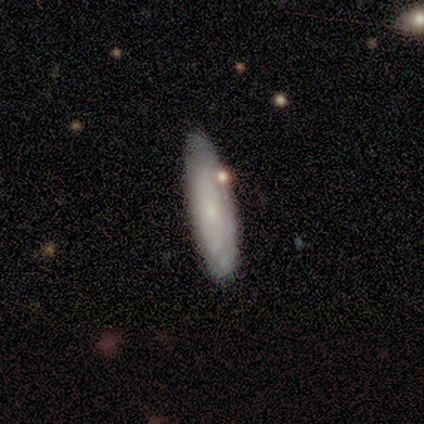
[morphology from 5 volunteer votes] Smooth or featured?
  - smooth: 60% *
  - star or artifact: 40%
  - featured or disk: 0%
How rounded?
  - cigar-shaped: 67% *
  - in between: 33%
  - round: 0%
Merging?
  - none: 100% *
  - minor disturbance: 0%
  - major disturbance: 0%
  - merger: 0%